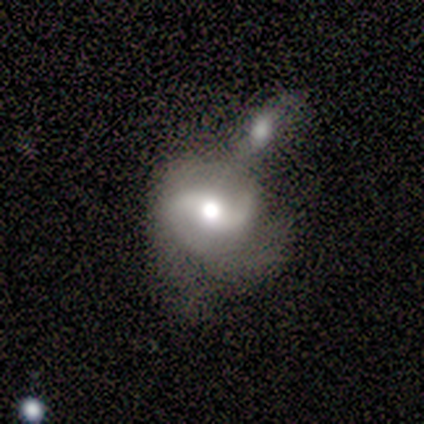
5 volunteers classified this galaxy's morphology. A featured or disk galaxy (100%) with a weak bar (60%), 2 (100%) medium (40%, tied with loose) spiral arms (100%) and a moderate central bulge (60%). Merging: merger (80%).